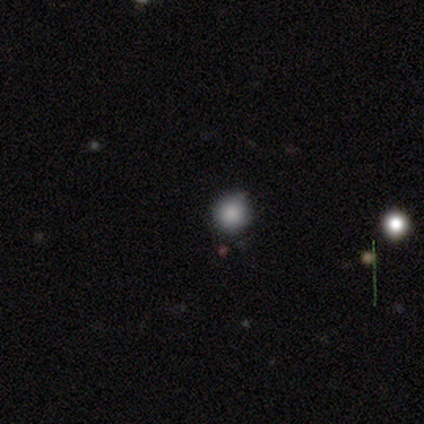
A smooth galaxy with no disk features (100%) that is round (80%). Merging: none (100%).